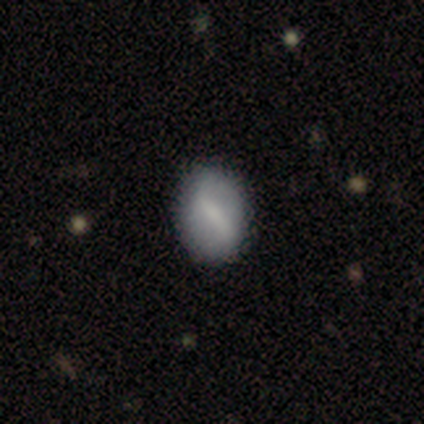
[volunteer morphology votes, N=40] Q: Smooth or featured?
A: smooth (50%); runner-up: featured or disk (45%)
Q: How rounded?
A: in between (75%); runner-up: round (20%)
Q: Merging?
A: none (79%); runner-up: minor disturbance (18%)